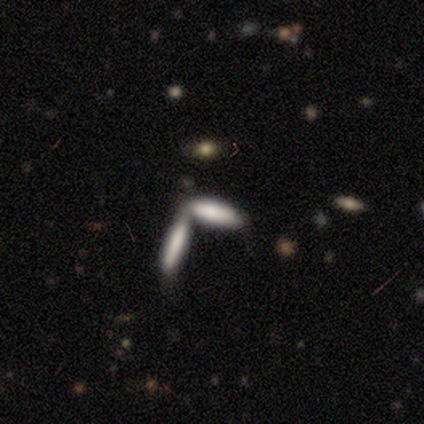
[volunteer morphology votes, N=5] Q: Smooth or featured?
A: smooth (80%); runner-up: featured or disk (20%)
Q: How rounded?
A: cigar-shaped (75%); runner-up: in between (25%)
Q: Merging?
A: merger (80%); runner-up: minor disturbance (20%)